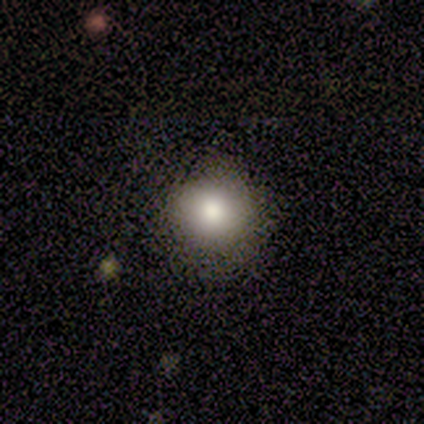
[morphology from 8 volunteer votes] A smooth galaxy with no disk features (100%) that is round (88%).

Vote fractions:
- Smooth or featured? smooth: 100% / featured or disk: 0% / star or artifact: 0%
- How rounded? round: 88% / in between: 12% / cigar-shaped: 0%
- Merging? none: 100% / minor disturbance: 0% / major disturbance: 0% / merger: 0%